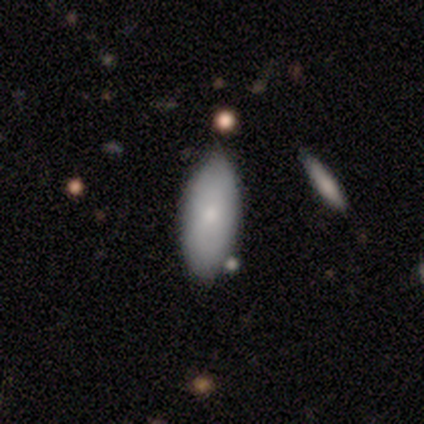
Morphology: type=smooth (50%); roundness=in between (75%); merging=none (83%).